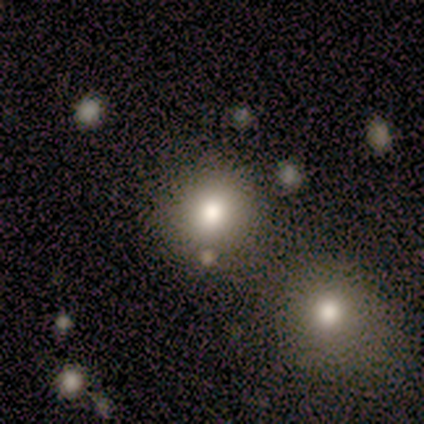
This appears to be a smooth galaxy with no disk features (80%) that is round (100%). Merging: none (75%).